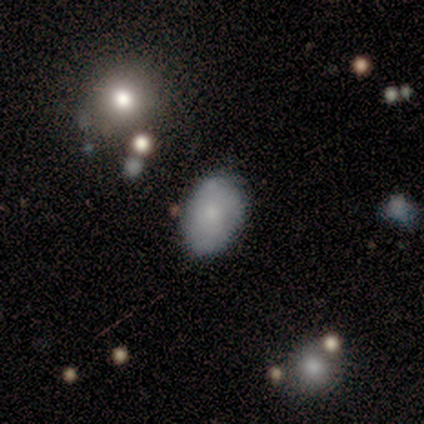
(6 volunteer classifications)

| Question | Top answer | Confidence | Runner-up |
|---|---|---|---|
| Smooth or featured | smooth | 67% | featured or disk (17%) |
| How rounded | in between | 100% | — |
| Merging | none | 60% | minor disturbance (40%) |